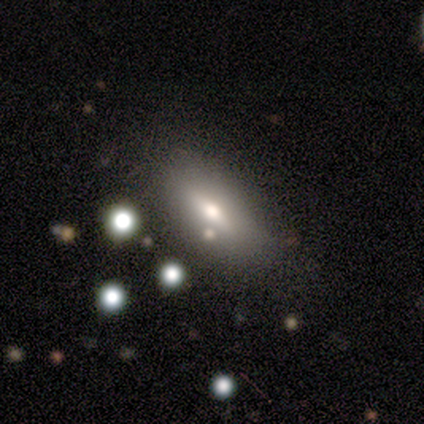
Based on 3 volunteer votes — Volunteers were most divided on "smooth or featured": smooth: 67%, featured or disk: 33%, star or artifact: 0%. More confident: how rounded — in between (100%); merging — none (100%).